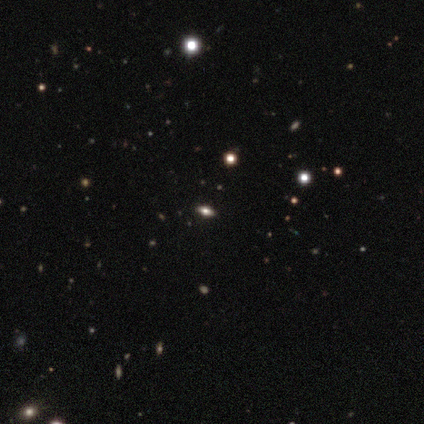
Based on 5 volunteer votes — Volunteers were most divided on "how rounded": in between: 75%, round: 25%, cigar-shaped: 0%. More confident: merging — none (100%); smooth or featured — smooth (80%).